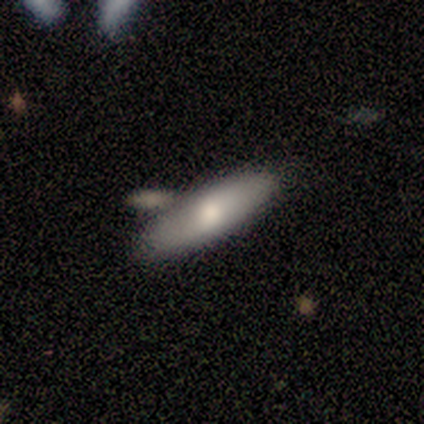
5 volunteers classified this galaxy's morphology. Smooth or featured? smooth (60%)
How rounded? in between (67%)
Merging? none (80%)